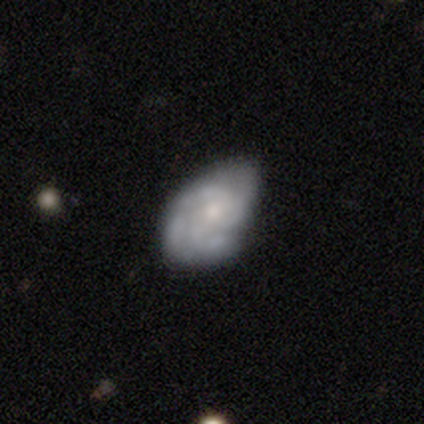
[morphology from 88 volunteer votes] Smooth or featured?
  - featured or disk: 73% *
  - smooth: 23%
  - star or artifact: 5%
Edge-on disk?
  - no: 98% *
  - yes: 2%
Bar?
  - no: 78% *
  - weak: 19%
  - strong: 3%
Spiral arms?
  - yes: 79% *
  - no: 21%
Spiral winding?
  - tight: 60% *
  - medium: 30%
  - loose: 10%
Spiral arm count?
  - 3: 42% *
  - 4: 24%
  - 2: 20%
  - can't tell: 14%
  - 1: 0%
  - more than 4: 0%
Bulge size?
  - small: 67% *
  - moderate: 29%
  - none: 5%
  - dominant: 0%
  - large: 0%
Merging?
  - none: 56% *
  - minor disturbance: 40%
  - major disturbance: 4%
  - merger: 0%